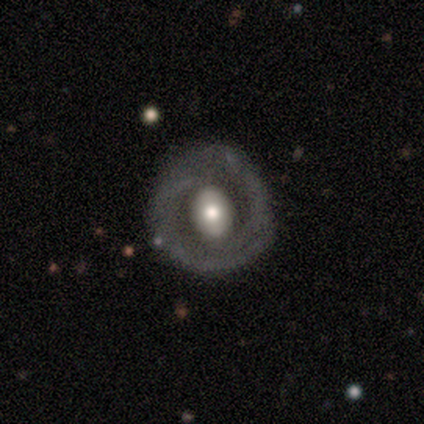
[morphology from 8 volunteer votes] A featured or disk galaxy (62%) with no bar (60%), 2 (100%) tight (67%) spiral arms (60%) and a large central bulge (40%, tied with moderate).

Vote fractions:
- Smooth or featured? featured or disk: 62% / smooth: 25% / star or artifact: 12%
- Edge-on disk? no: 100% / yes: 0%
- Bar? no: 60% / weak: 40% / strong: 0%
- Spiral arms? yes: 60% / no: 40%
- Spiral winding? tight: 67% / loose: 33% / medium: 0%
- Spiral arm count? 2: 100% / 1: 0% / 3: 0% / 4: 0% / more than 4: 0% / can't tell: 0%
- Bulge size? large: 40% (tied) / moderate: 40% (tied) / small: 20% / dominant: 0% / none: 0%
- Merging? none: 71% / minor disturbance: 14% / merger: 14% / major disturbance: 0%